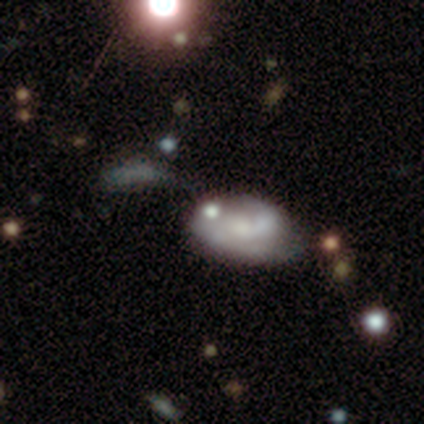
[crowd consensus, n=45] This is possibly a featured or disk galaxy (56%). It is clearly not viewed edge-on (92%). Bar: likely no (78%). Spiral arm pattern: possibly yes (57%). Spiral arm count: clearly 2 (85%). Spiral winding: marginally medium (38%). Central bulge: marginally none (39%). Merging: possibly none (46%).